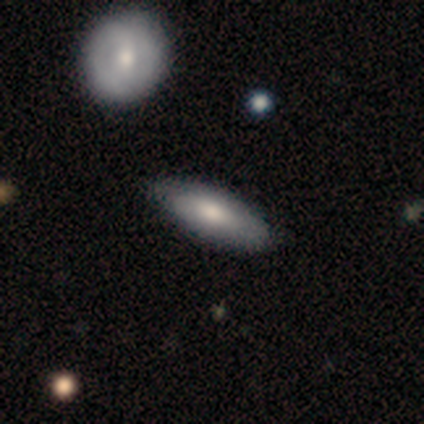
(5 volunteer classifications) Smooth or featured?
  - smooth: 80% *
  - featured or disk: 20%
  - star or artifact: 0%
How rounded?
  - in between: 75% *
  - cigar-shaped: 25%
  - round: 0%
Merging?
  - none: 60% *
  - minor disturbance: 40%
  - major disturbance: 0%
  - merger: 0%